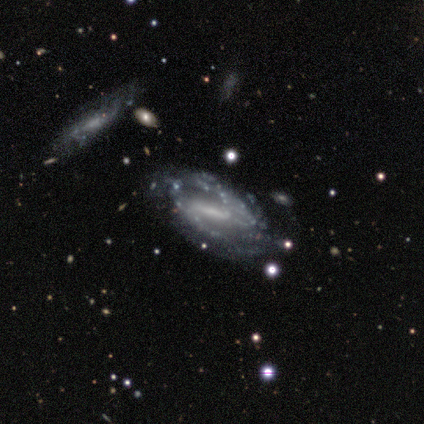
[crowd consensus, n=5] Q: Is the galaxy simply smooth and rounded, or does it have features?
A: featured or disk — 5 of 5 (100%).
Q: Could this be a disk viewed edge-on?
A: no — 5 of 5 (100%).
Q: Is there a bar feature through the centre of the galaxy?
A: strong — 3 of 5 (60%).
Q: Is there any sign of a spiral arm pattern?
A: yes — 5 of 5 (100%).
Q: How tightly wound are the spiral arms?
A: tight — 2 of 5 (40%, tied with medium).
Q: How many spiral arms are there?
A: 2 — 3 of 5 (60%).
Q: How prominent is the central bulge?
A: small — 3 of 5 (60%).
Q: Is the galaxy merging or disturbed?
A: none — 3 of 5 (60%).